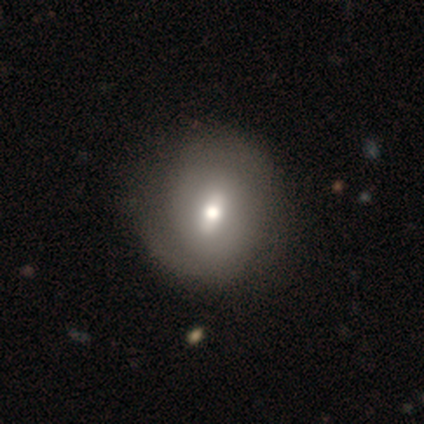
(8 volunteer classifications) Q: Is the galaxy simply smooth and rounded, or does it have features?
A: smooth — 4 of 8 (50%, tied with featured or disk).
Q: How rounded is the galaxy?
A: round — 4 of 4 (100%).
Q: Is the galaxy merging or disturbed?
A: none — 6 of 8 (75%).